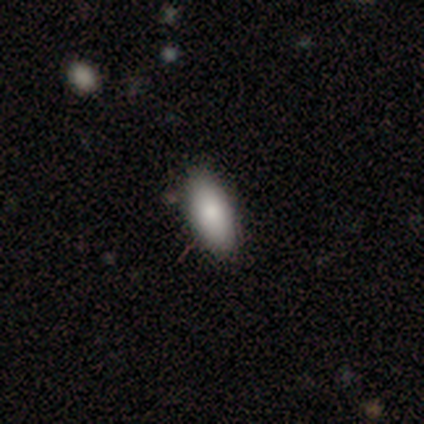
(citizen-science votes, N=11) Smooth or featured: smooth — 82% (featured or disk — 18%)
How rounded: in between — 89% (cigar-shaped — 11%)
Merging: none — 100%